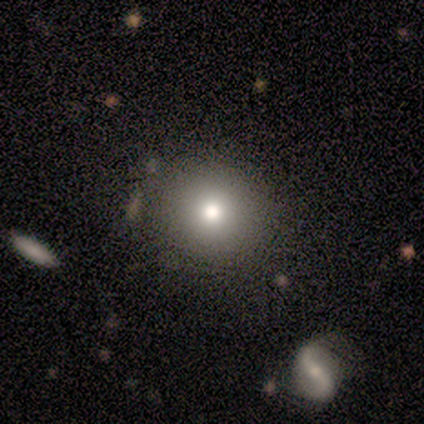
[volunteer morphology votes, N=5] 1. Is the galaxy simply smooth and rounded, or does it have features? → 60% smooth, 40% featured or disk, 0% star or artifact.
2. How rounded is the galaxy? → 100% round, 0% in between, 0% cigar-shaped.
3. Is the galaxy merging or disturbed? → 80% none, 20% minor disturbance, 0% major disturbance, 0% merger.